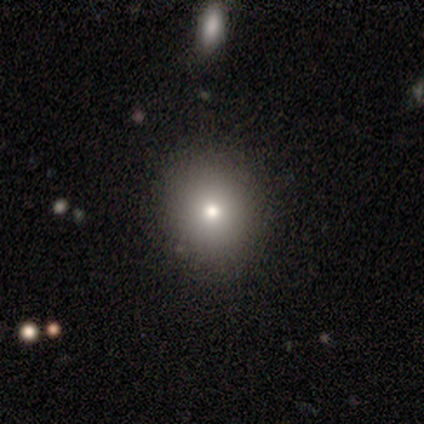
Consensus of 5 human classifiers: smooth 80%, star or artifact 20%, featured or disk 0%. Down the decision tree: how rounded — round (50%, tied with in between); merging — none (100%).